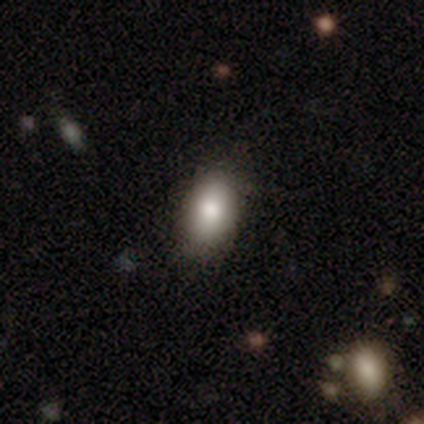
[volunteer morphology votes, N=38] A smooth galaxy with no disk features (84%) that is in between round and cigar-shaped (94%). Merging: none (81%).